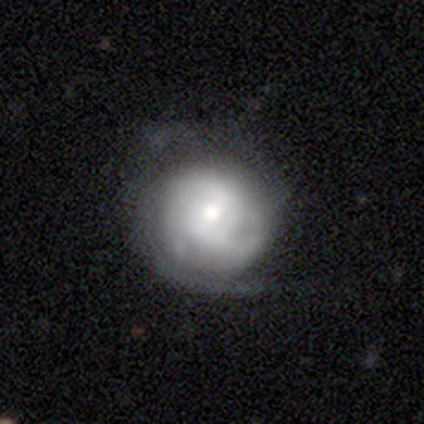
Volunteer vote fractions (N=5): Overall: featured or disk (80%). Edge-on disk: no (100%). Bar: weak (50%; strong 25%). Spiral arms: yes (100%). Spiral arm count: 2 (25%, tied with 4, more than 4 and can't tell). Spiral winding: tight (100%). Bulge size: small (50%; large 25%). Merging: minor disturbance (60%; none 40%).